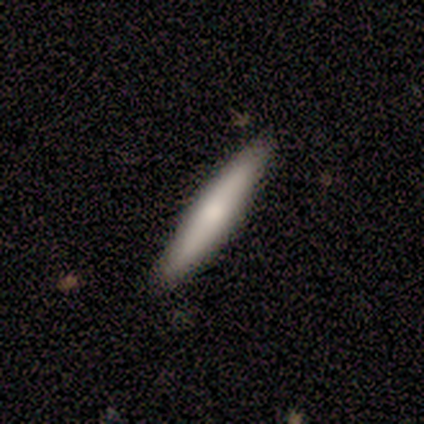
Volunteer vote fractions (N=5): Volunteers were most divided on "smooth or featured": smooth: 80%, featured or disk: 20%, star or artifact: 0%. More confident: how rounded — cigar-shaped (100%); merging — none (100%).